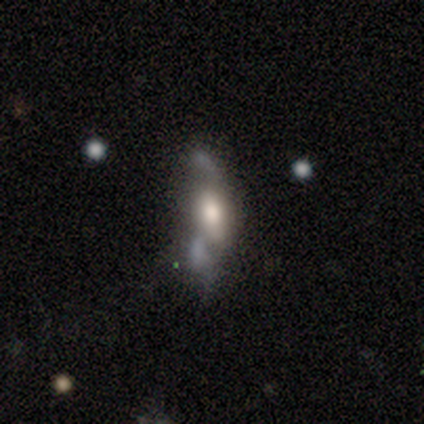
Overall: smooth (67%; featured or disk 33%). How rounded: in between (50%, tied with cigar-shaped). Merging: none (33%, tied with major disturbance and merger).